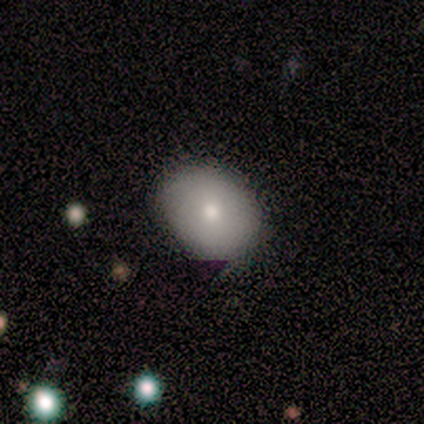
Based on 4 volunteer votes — This appears to be a smooth galaxy with no disk features (75%) that is in between round and cigar-shaped (100%). Merging: none (50%, tied with minor disturbance).